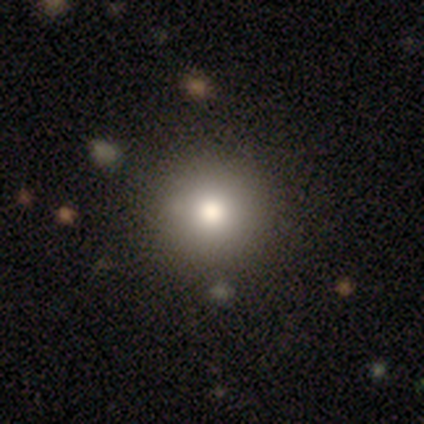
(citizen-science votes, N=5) Smooth or featured?
  - smooth: 60% *
  - featured or disk: 40%
  - star or artifact: 0%
How rounded?
  - round: 100% *
  - in between: 0%
  - cigar-shaped: 0%
Merging?
  - none: 80% *
  - minor disturbance: 20%
  - major disturbance: 0%
  - merger: 0%